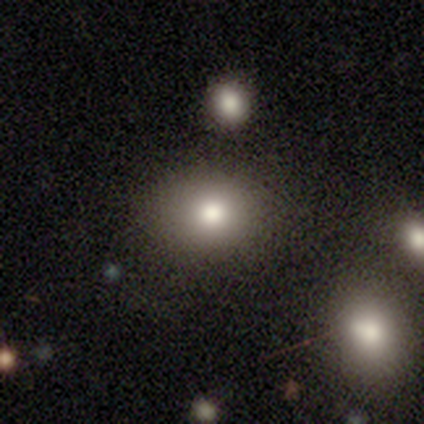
Morphology: type=smooth (40%, tied with star or artifact); roundness=round (50%, tied with in between); merging=none (100%).